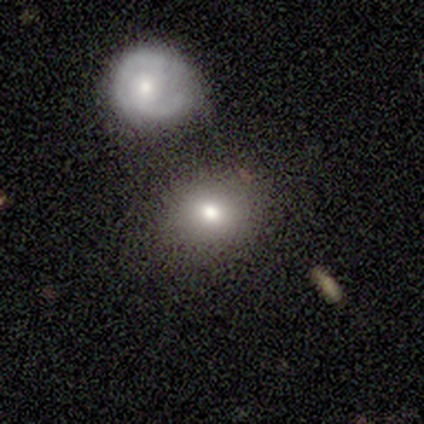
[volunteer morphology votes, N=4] Q: Smooth or featured?
A: smooth (75%); runner-up: featured or disk (25%)
Q: How rounded?
A: in between (67%); runner-up: round (33%)
Q: Merging?
A: none (100%)